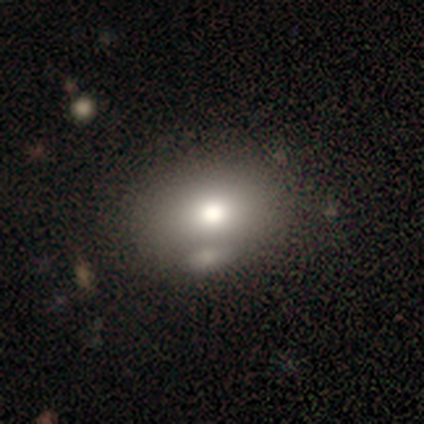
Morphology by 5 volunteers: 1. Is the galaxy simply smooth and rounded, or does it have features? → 80% smooth, 20% star or artifact, 0% featured or disk.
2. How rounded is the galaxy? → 100% in between, 0% round, 0% cigar-shaped.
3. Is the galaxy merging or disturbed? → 75% none, 25% merger, 0% minor disturbance, 0% major disturbance.